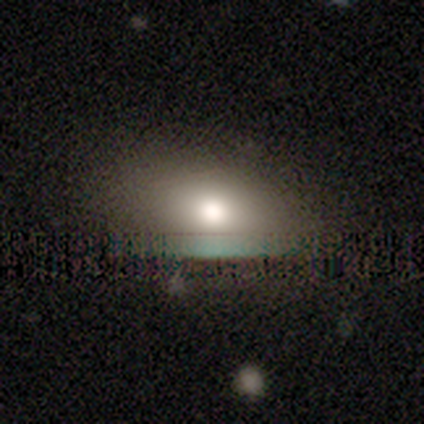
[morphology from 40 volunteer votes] Smooth or featured?
  - smooth: 72% *
  - featured or disk: 15%
  - star or artifact: 12%
How rounded?
  - in between: 76% *
  - round: 17%
  - cigar-shaped: 7%
Merging?
  - none: 74% *
  - minor disturbance: 17%
  - major disturbance: 9%
  - merger: 0%